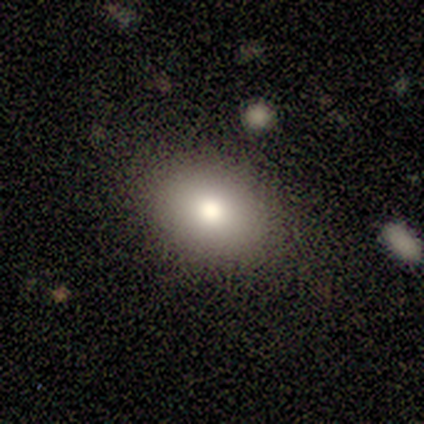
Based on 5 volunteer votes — Overall: smooth (80%). How rounded: in between (75%). Merging: none (100%).